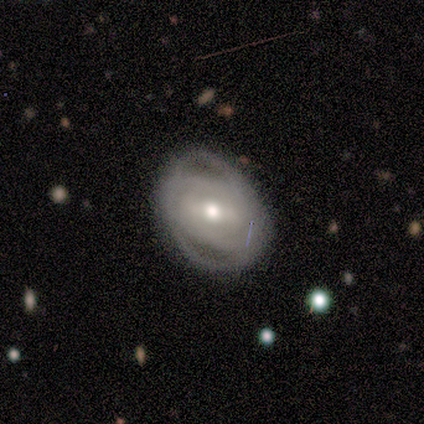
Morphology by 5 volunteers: Smooth or featured?
  - featured or disk: 100% *
  - smooth: 0%
  - star or artifact: 0%
Edge-on disk?
  - no: 80% *
  - yes: 20%
Bar?
  - weak: 50% * (tied)
  - no: 50% * (tied)
  - strong: 0%
Spiral arms?
  - yes: 100% *
  - no: 0%
Spiral winding?
  - tight: 75% *
  - medium: 25%
  - loose: 0%
Spiral arm count?
  - can't tell: 75% *
  - 3: 25%
  - 1: 0%
  - 2: 0%
  - 4: 0%
  - more than 4: 0%
Bulge size?
  - moderate: 100% *
  - dominant: 0%
  - large: 0%
  - small: 0%
  - none: 0%
Merging?
  - none: 80% *
  - major disturbance: 20%
  - minor disturbance: 0%
  - merger: 0%